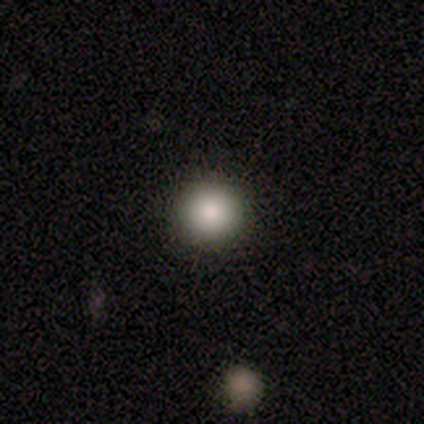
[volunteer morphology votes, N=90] Volunteers were most divided on "smooth or featured": smooth: 80%, featured or disk: 10%, star or artifact: 10%. More confident: how rounded — round (97%); merging — none (94%).